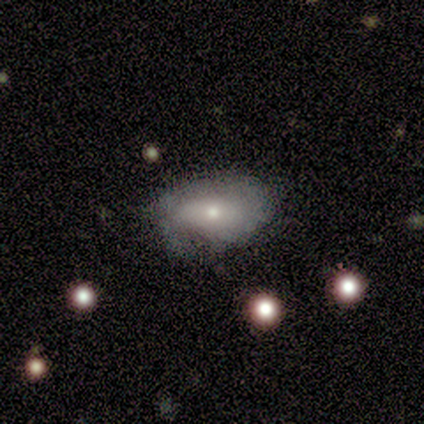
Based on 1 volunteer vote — This is clearly a featured or disk galaxy (100%). It is clearly not viewed edge-on (100%). Bar: clearly no (100%). Spiral arm pattern: clearly no (100%). Central bulge: clearly small (100%). Merging: clearly minor disturbance (100%).